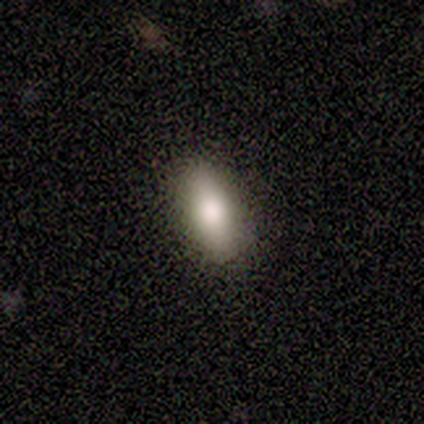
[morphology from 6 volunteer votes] Smooth or featured? 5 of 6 (83%) said smooth. How rounded? 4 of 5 (80%) said in between. Merging? 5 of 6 (83%) said none.